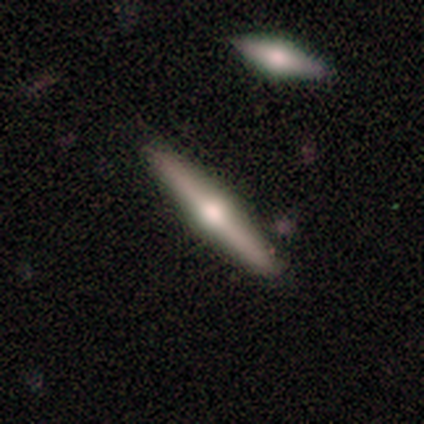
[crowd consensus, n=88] A featured or disk galaxy (69%) viewed edge-on (98%) with a rounded central bulge (93%).

Vote fractions:
- Smooth or featured? featured or disk: 69% / smooth: 25% / star or artifact: 6%
- Edge-on disk? yes: 98% / no: 2%
- Edge-on bulge? rounded: 93% / boxy: 5% / none: 2%
- Merging? none: 86% / minor disturbance: 8% / merger: 5% / major disturbance: 1%